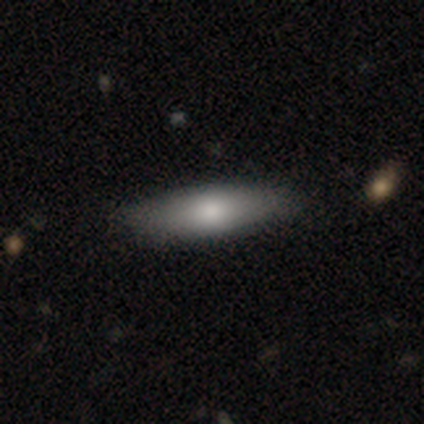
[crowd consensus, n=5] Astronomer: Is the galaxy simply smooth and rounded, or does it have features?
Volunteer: smooth — 80%.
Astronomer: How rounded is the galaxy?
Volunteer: cigar-shaped — 100%.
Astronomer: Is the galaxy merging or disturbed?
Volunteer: none — 80%.